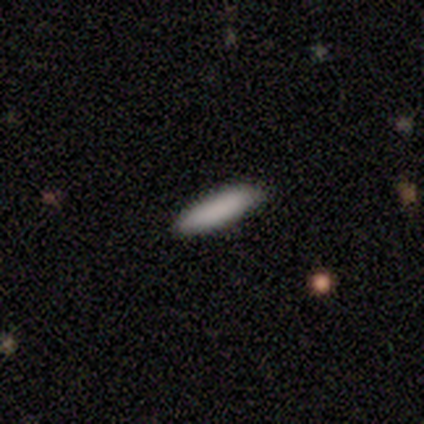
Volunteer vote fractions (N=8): Volunteers were most divided on "how rounded": cigar-shaped: 71%, in between: 29%, round: 0%. More confident: smooth or featured — smooth (88%); merging — none (86%).